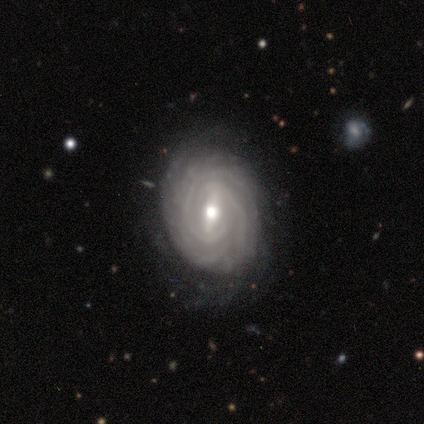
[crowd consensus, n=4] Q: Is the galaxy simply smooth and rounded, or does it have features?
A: featured or disk — 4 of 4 (100%).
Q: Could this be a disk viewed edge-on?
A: no — 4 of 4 (100%).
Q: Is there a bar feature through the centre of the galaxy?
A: strong — 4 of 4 (100%).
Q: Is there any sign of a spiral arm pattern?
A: yes — 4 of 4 (100%).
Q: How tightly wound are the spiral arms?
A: tight — 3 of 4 (75%).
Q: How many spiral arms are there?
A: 4 — 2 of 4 (50%).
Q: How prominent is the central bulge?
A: moderate — 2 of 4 (50%, tied with small).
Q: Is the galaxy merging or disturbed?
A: none — 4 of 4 (100%).